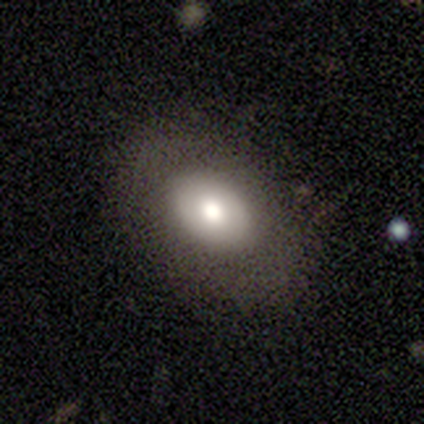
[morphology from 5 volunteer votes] smooth_or_featured: smooth (p=0.60) [alt: featured or disk p=0.20]
how_rounded: in between (p=1.00)
merging: none (p=1.00)